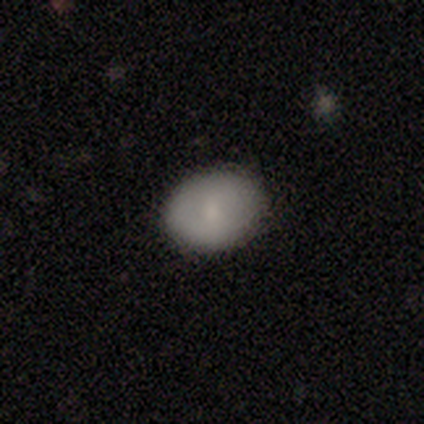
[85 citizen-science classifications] Volunteers were most divided on "how rounded": in between: 64%, round: 35%, cigar-shaped: 1%. More confident: merging — none (91%); smooth or featured — smooth (81%).